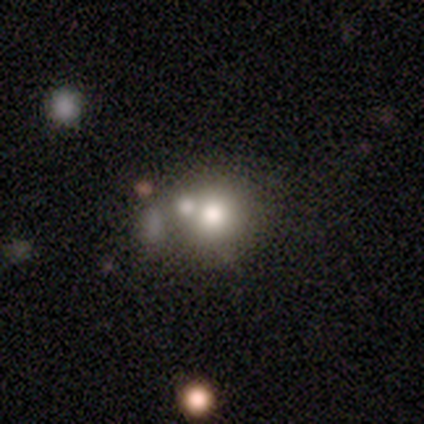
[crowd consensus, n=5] Q: Smooth or featured?
A: smooth (100%)
Q: How rounded?
A: round (80%); runner-up: in between (20%)
Q: Merging?
A: minor disturbance (60%); runner-up: none (20%)